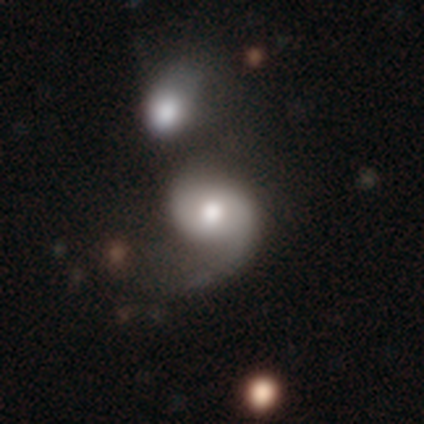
smooth_or_featured: featured or disk (p=1.00)
disk_edge_on: no (p=1.00)
bar: no (p=0.80) [alt: weak p=0.20]
has_spiral_arms: yes (p=0.80) [alt: no p=0.20]
spiral_winding: loose (p=0.75) [alt: medium p=0.25]
spiral_arm_count: 1 (p=0.50) [tied with: 2 p=0.50]
bulge_size: moderate (p=0.80) [alt: large p=0.20]
merging: none (p=0.80) [alt: major disturbance p=0.20]